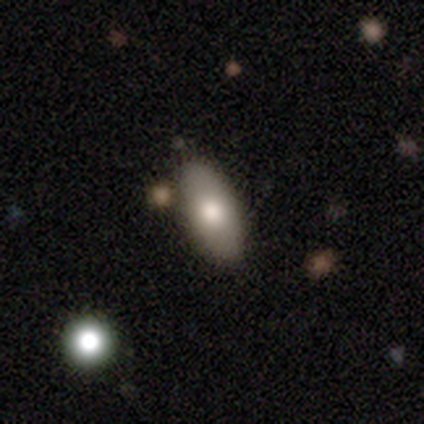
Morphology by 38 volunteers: Overall: smooth (66%; featured or disk 32%). How rounded: in between (84%). Merging: none (81%).